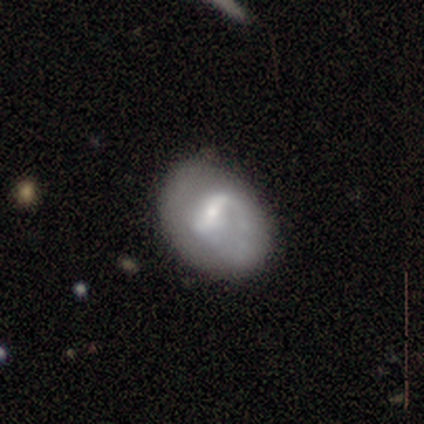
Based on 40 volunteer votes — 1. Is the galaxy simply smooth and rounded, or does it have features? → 68% featured or disk, 22% smooth, 10% star or artifact.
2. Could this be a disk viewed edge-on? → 100% no, 0% yes.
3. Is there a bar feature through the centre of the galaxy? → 63% weak, 30% strong, 7% no.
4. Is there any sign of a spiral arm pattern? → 56% yes, 44% no.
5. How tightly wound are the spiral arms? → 47% medium (tied), 47% loose (tied), 7% tight.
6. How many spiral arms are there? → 53% 2, 40% 1, 7% can't tell, 0% 3, 0% 4, 0% more than 4.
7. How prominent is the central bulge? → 67% small, 30% moderate, 4% large, 0% dominant, 0% none.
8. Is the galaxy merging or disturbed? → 61% none, 31% minor disturbance, 8% major disturbance, 0% merger.